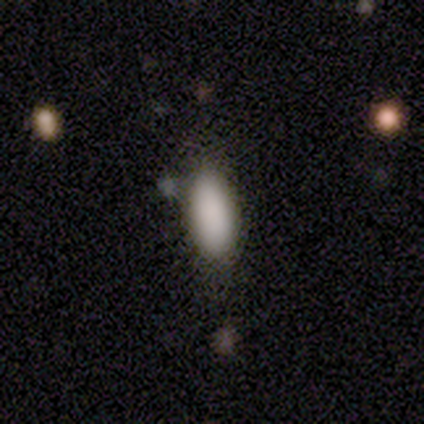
Q: Smooth or featured?
A: smooth (87%); runner-up: star or artifact (8%)
Q: How rounded?
A: in between (85%); runner-up: cigar-shaped (15%)
Q: Merging?
A: none (71%); runner-up: minor disturbance (20%)